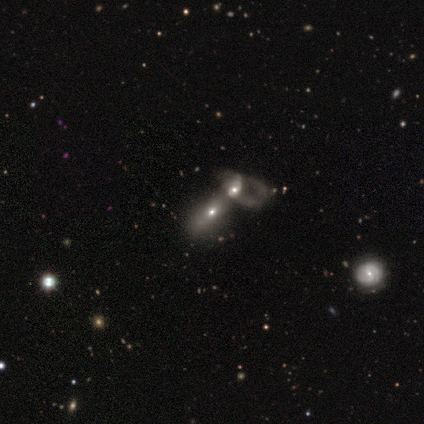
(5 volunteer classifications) A smooth galaxy with no disk features (80%) that is in between round and cigar-shaped (75%). Merging: merger (100%).